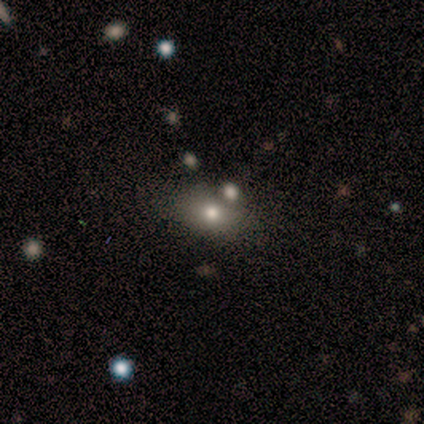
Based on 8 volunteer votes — Overall: smooth (75%). How rounded: in between (100%). Merging: none (62%; merger 25%).